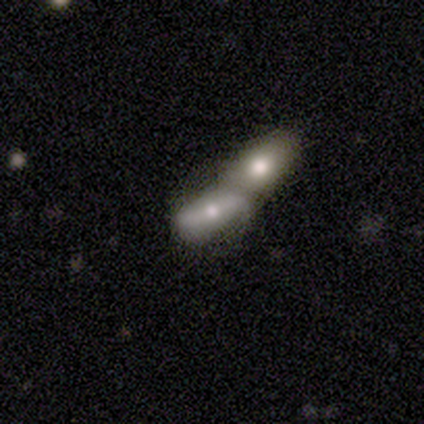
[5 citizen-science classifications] Overall: smooth (80%). How rounded: in between (100%). Merging: merger (80%).